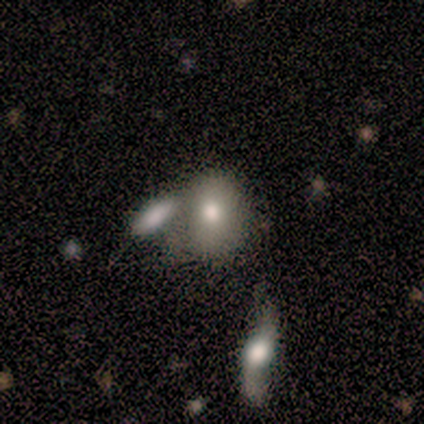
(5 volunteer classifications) smooth-or-featured: smooth: 60% | featured or disk: 20% | star or artifact: 20%
  how-rounded: round: 100% | in between: 0% | cigar-shaped: 0%
  merging: none: 50% (tied) | merger: 50% (tied) | minor disturbance: 0% | major disturbance: 0%